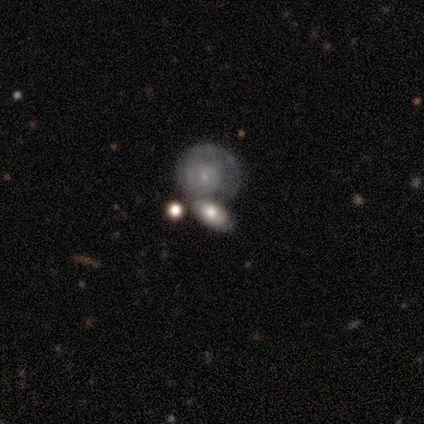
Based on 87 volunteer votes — This is possibly a smooth galaxy (47%, tied with featured or disk). How rounded: likely in between (66%). Merging: possibly none (51%).